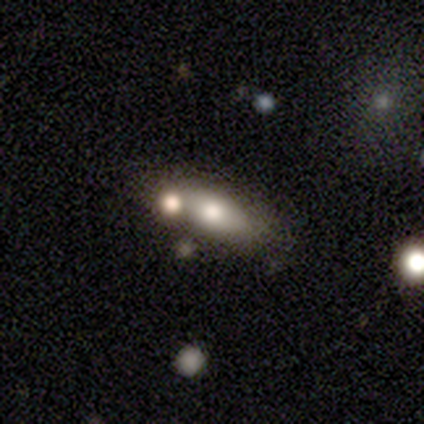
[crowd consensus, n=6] Morphology: type=smooth (100%); roundness=in between (83%); merging=merger (67%).